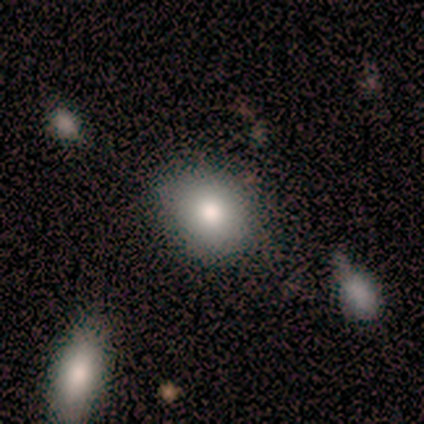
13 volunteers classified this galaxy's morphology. Smooth or featured?
  - smooth: 77% *
  - featured or disk: 15%
  - star or artifact: 8%
How rounded?
  - round: 50% *
  - in between: 40%
  - cigar-shaped: 10%
Merging?
  - none: 75% *
  - minor disturbance: 25%
  - major disturbance: 0%
  - merger: 0%